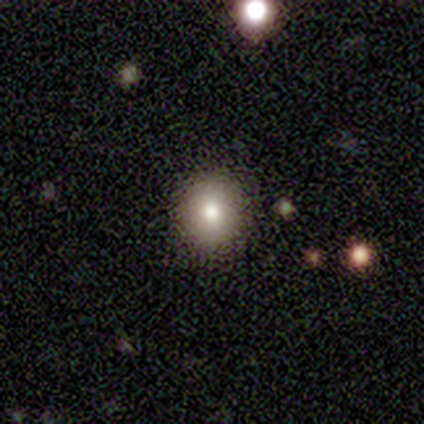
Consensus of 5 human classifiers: Overall: smooth (80%). How rounded: round (100%). Merging: none (75%).